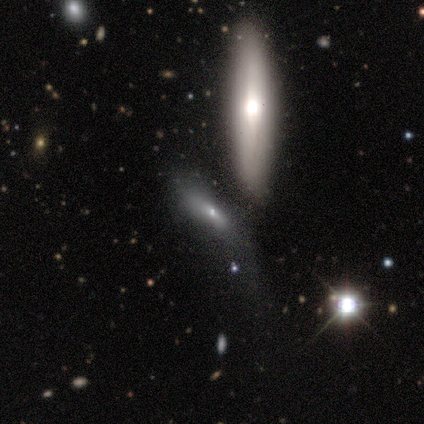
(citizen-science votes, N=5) This appears to be a smooth galaxy with no disk features (60%) that is cigar-shaped (67%). Merging: none (60%).